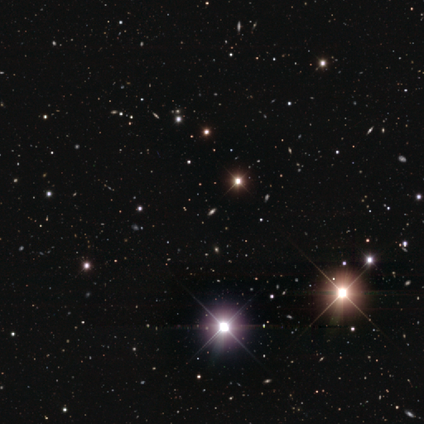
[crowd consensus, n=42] Overall: star or artifact (86%).